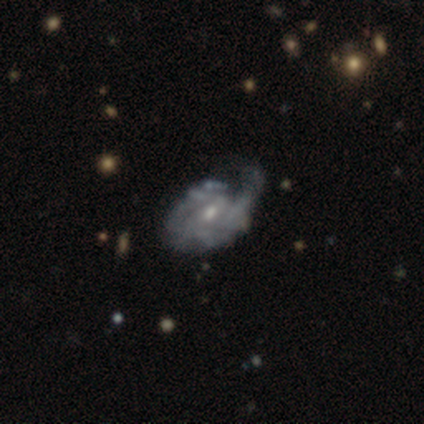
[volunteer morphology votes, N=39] smooth-or-featured: featured or disk: 79% | smooth: 13% | star or artifact: 8%
  disk-edge-on: no: 90% | yes: 10%
    bar: no: 71% | weak: 25% | strong: 4%
    has-spiral-arms: yes: 71% | no: 29%
      spiral-winding: tight: 45% (tied) | medium: 45% (tied) | loose: 10%
      spiral-arm-count: can't tell: 60% | 2: 25% | 1: 5% | 3: 5% | more than 4: 5% | 4: 0%
    bulge-size: small: 61% | moderate: 36% | none: 4% | dominant: 0% | large: 0%
  merging: major disturbance: 36% | minor disturbance: 33% | none: 25% | merger: 6%